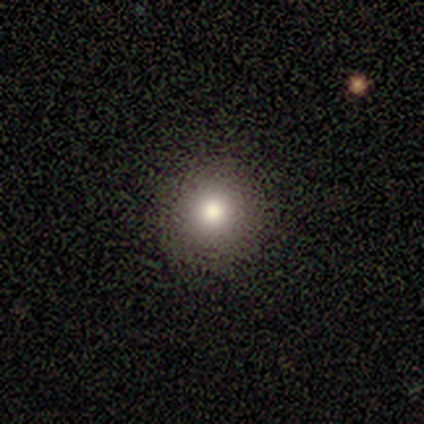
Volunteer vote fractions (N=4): This is likely a smooth galaxy (75%). How rounded: clearly round (100%). Merging: clearly none (100%).